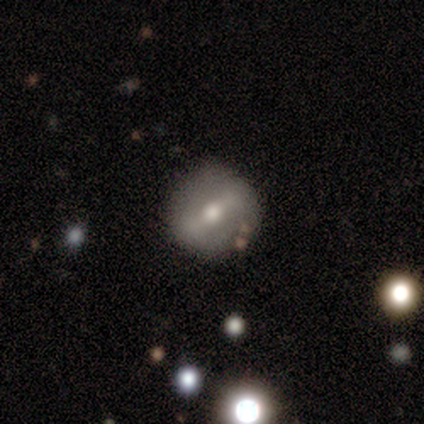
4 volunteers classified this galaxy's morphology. This appears to be a featured or disk galaxy (50%) viewed edge-on (50%, tied with no) with a rounded central bulge (100%). Merging: minor disturbance (33%, tied with major disturbance and merger).